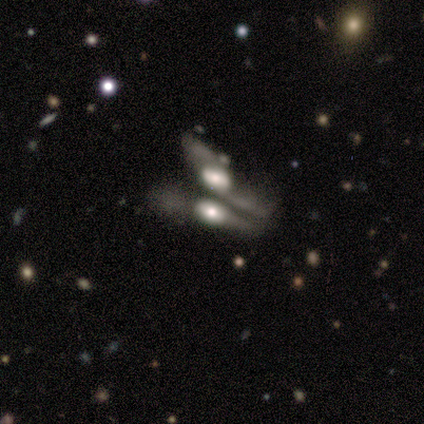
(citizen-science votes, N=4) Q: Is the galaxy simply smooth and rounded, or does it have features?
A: smooth — 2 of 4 (50%, tied with featured or disk).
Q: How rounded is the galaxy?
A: cigar-shaped — 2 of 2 (100%).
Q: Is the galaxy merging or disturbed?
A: merger — 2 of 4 (50%).